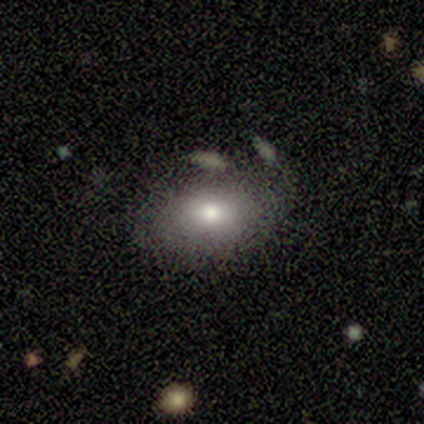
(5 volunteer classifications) smooth_or_featured: smooth (p=0.60) [alt: featured or disk p=0.40]
how_rounded: in between (p=1.00)
merging: none (p=0.60) [alt: major disturbance p=0.40]